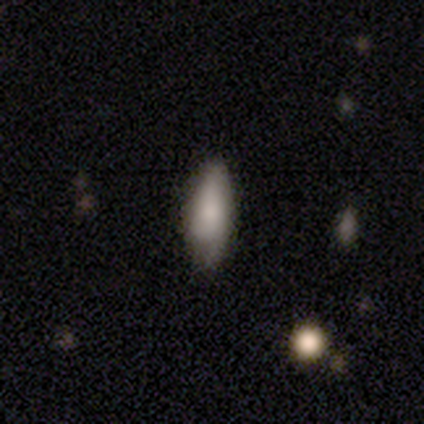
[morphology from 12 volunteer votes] A smooth galaxy with no disk features (83%) that is in between round and cigar-shaped (70%). Merging: none (60%).